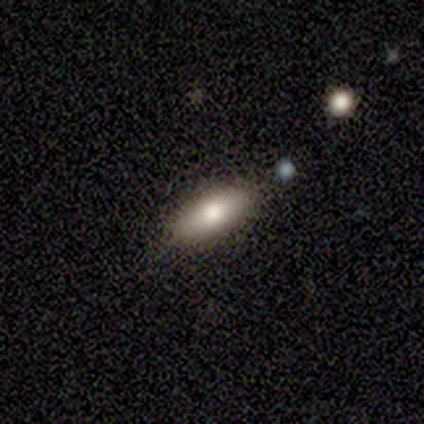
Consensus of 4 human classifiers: smooth 100%, featured or disk 0%, star or artifact 0%. Down the decision tree: how rounded — in between (50%, tied with cigar-shaped); merging — none (75%).